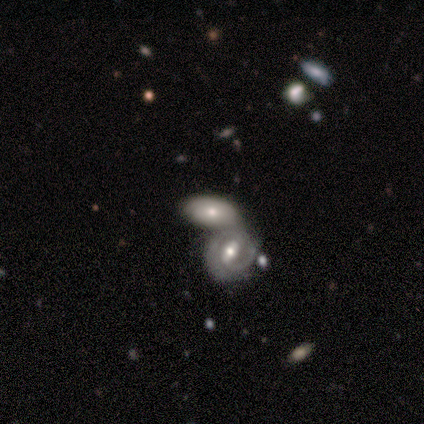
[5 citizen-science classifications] smooth-or-featured: featured or disk: 60% | smooth: 40% | star or artifact: 0%
  disk-edge-on: no: 100% | yes: 0%
    bar: no: 67% | strong: 33% | weak: 0%
    has-spiral-arms: yes: 67% | no: 33%
      spiral-winding: tight: 50% (tied) | medium: 50% (tied) | loose: 0%
      spiral-arm-count: 2: 100% | 1: 0% | 3: 0% | 4: 0% | more than 4: 0% | can't tell: 0%
    bulge-size: small: 67% | moderate: 33% | dominant: 0% | large: 0% | none: 0%
  merging: merger: 80% | none: 20% | minor disturbance: 0% | major disturbance: 0%